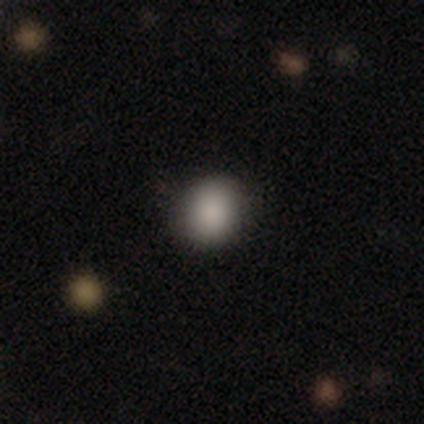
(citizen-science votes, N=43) A smooth galaxy with no disk features (84%) that is round (75%).

Vote fractions:
- Smooth or featured? smooth: 84% / featured or disk: 14% / star or artifact: 2%
- How rounded? round: 75% / in between: 25% / cigar-shaped: 0%
- Merging? none: 90% / minor disturbance: 10% / major disturbance: 0% / merger: 0%